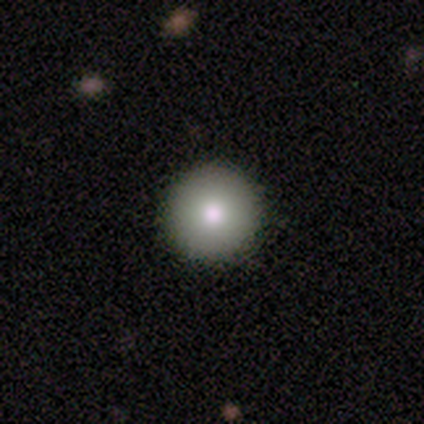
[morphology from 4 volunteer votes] A smooth galaxy with no disk features (100%) that is round (100%). Merging: none (100%).